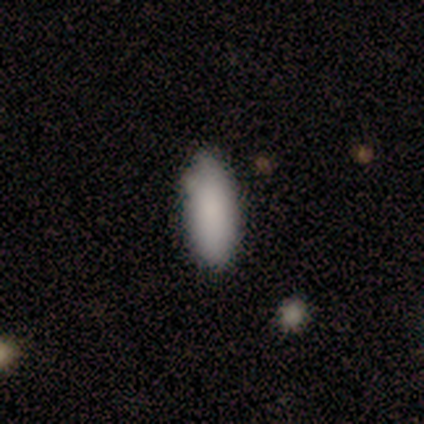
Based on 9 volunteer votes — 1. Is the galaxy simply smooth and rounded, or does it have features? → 100% smooth, 0% featured or disk, 0% star or artifact.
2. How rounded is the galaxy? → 78% in between, 22% cigar-shaped, 0% round.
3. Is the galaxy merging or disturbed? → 78% none, 22% minor disturbance, 0% major disturbance, 0% merger.